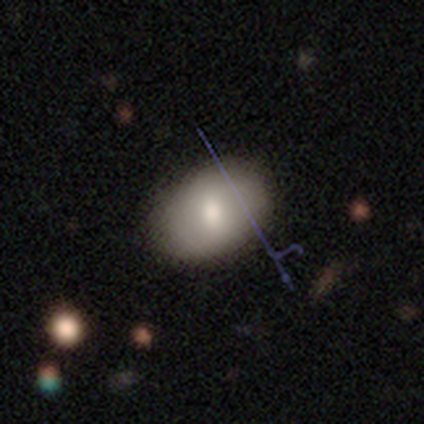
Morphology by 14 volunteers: This appears to be a smooth galaxy with no disk features (71%) that is in between round and cigar-shaped (90%). Merging: none (71%).